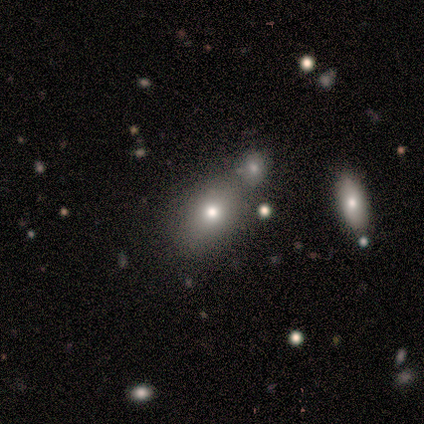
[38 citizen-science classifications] smooth_or_featured: smooth (p=0.58) [alt: featured or disk p=0.21]
how_rounded: in between (p=0.68) [alt: round p=0.27]
merging: none (p=0.63) [alt: merger p=0.23]